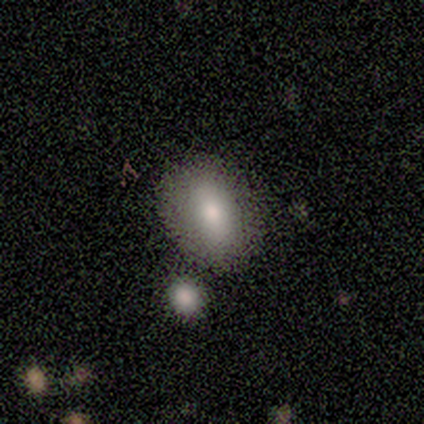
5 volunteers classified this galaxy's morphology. Overall: smooth (80%). How rounded: in between (75%). Merging: none (100%).